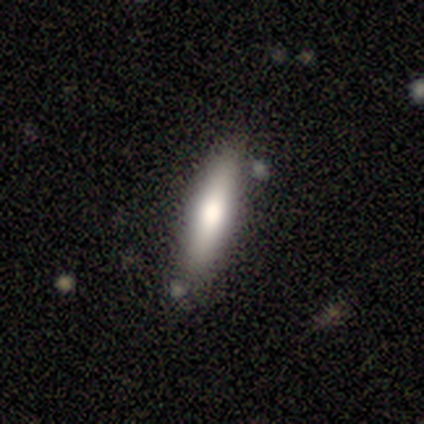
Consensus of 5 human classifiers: A smooth galaxy with no disk features (80%) that is cigar-shaped (75%). Merging: none (80%).